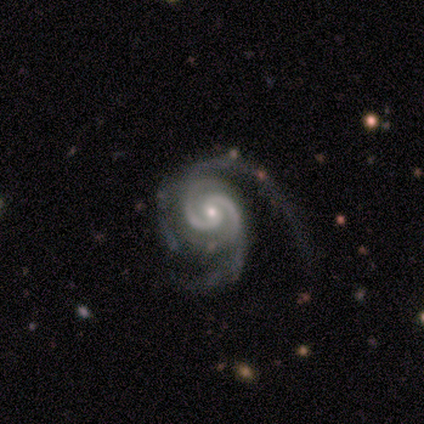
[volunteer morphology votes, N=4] smooth-or-featured: featured or disk: 75% | star or artifact: 25% | smooth: 0%
  disk-edge-on: no: 100% | yes: 0%
    bar: strong: 33% (tied) | weak: 33% (tied) | no: 33% (tied)
    has-spiral-arms: yes: 100% | no: 0%
      spiral-winding: tight: 67% | medium: 33% | loose: 0%
      spiral-arm-count: 2: 67% | 4: 33% | 1: 0% | 3: 0% | more than 4: 0% | can't tell: 0%
    bulge-size: small: 67% | moderate: 33% | dominant: 0% | large: 0% | none: 0%
  merging: major disturbance: 67% | none: 33% | minor disturbance: 0% | merger: 0%